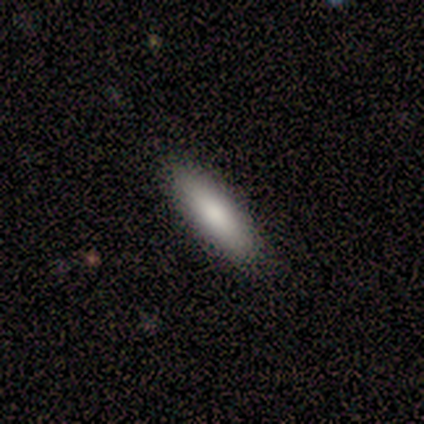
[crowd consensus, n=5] A smooth galaxy with no disk features (80%) that is in between round and cigar-shaped (50%, tied with cigar-shaped). Merging: none (100%).